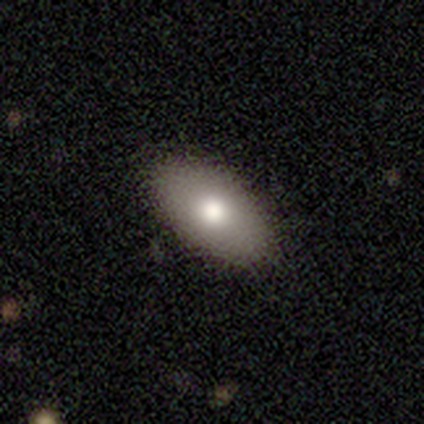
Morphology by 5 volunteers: Consensus on every question: smooth or featured — smooth (100%); how rounded — in between (100%); merging — none (100%).